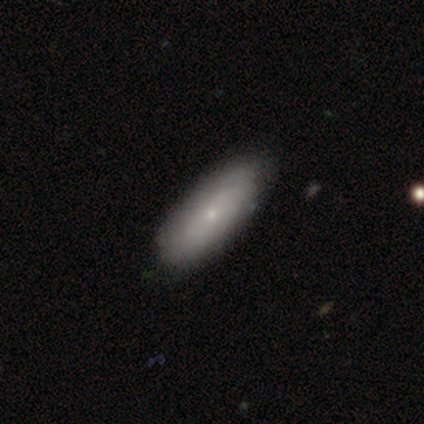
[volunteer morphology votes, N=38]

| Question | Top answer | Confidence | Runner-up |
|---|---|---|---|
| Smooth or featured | smooth | 50% | featured or disk (42%) |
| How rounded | in between | 74% | cigar-shaped (21%) |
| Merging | none | 71% | minor disturbance (26%) |